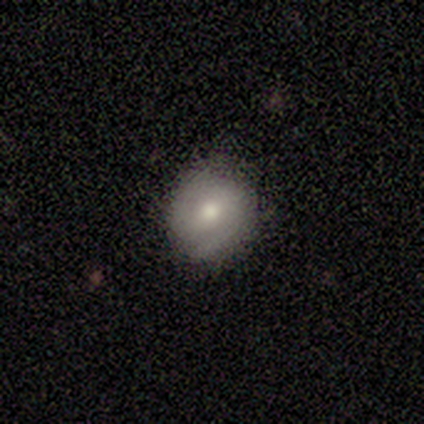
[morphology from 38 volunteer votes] Smooth or featured? 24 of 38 (63%) said smooth. How rounded? 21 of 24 (88%) said round. Merging? 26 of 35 (74%) said none.